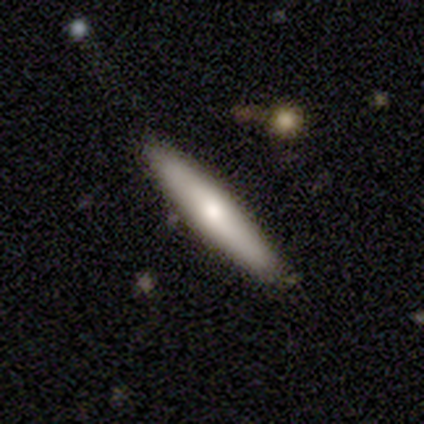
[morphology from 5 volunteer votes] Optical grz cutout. It shows a smooth galaxy with no disk features (80%) that is in between round and cigar-shaped (50%, tied with cigar-shaped). Merging: none (100%).